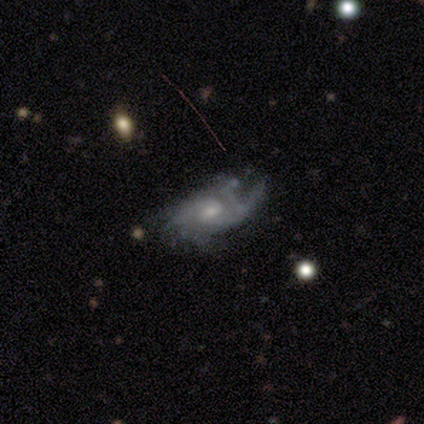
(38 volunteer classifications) Smooth or featured: featured or disk — 87% (star or artifact — 11%)
Edge-on disk: no — 97% (yes — 3%)
Bar: no — 59% (weak — 34%)
Spiral arms: yes — 88% (no — 12%)
Spiral winding: medium — 46% (tight — 36%)
Spiral arm count: can't tell — 54% (2 — 21%)
Bulge size: moderate — 59% (small — 38%)
Merging: none — 56% (minor disturbance — 24%)